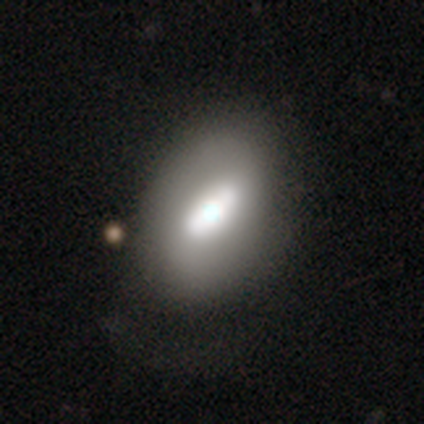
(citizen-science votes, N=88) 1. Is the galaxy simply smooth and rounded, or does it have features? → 48% featured or disk, 47% smooth, 6% star or artifact.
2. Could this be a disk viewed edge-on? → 81% no, 19% yes.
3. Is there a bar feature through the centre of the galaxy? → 41% strong, 29% weak, 29% no.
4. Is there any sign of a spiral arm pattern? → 82% no, 18% yes.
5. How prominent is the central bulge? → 44% moderate, 38% large, 9% small, 6% dominant, 3% none.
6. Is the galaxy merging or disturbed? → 60% none, 19% minor disturbance, 14% major disturbance, 6% merger.